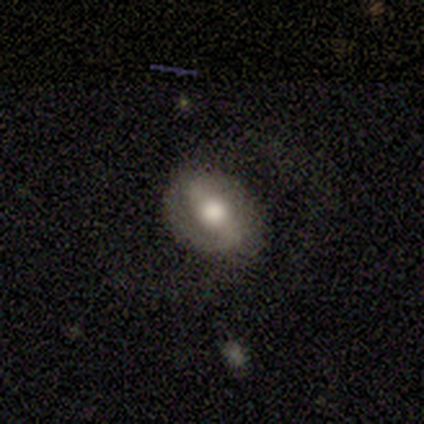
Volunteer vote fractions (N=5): smooth_or_featured: featured or disk (p=0.60) [alt: smooth p=0.40]
disk_edge_on: no (p=1.00)
bar: weak (p=0.67) [alt: strong p=0.33]
has_spiral_arms: yes (p=0.67) [alt: no p=0.33]
spiral_winding: medium (p=1.00)
spiral_arm_count: 2 (p=1.00)
bulge_size: large (p=0.67) [alt: moderate p=0.33]
merging: none (p=0.80) [alt: minor disturbance p=0.20]